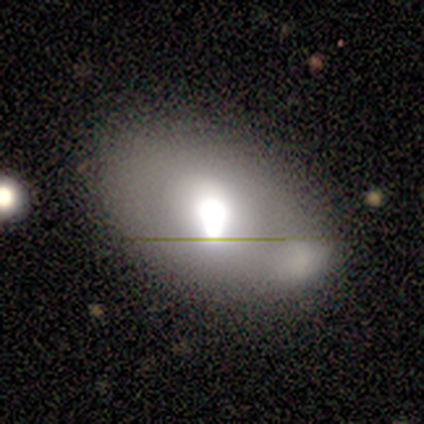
Volunteers were most divided on "merging": merger: 50%, none: 40%, minor disturbance: 10%, major disturbance: 0%. More confident: how rounded — in between (100%); smooth or featured — smooth (60%).